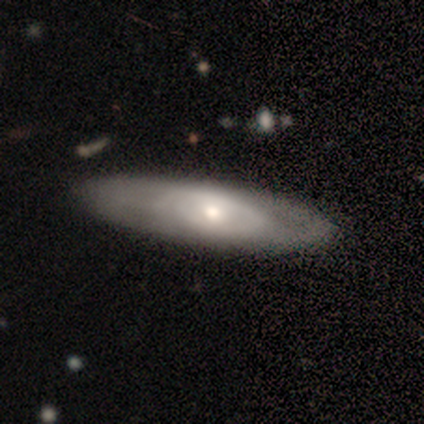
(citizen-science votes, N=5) This appears to be a smooth galaxy with no disk features (60%) that is in between round and cigar-shaped (67%). Merging: none (60%).